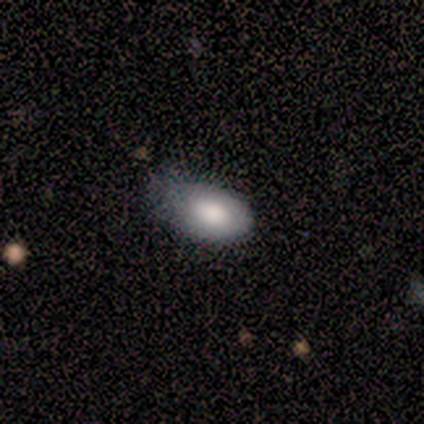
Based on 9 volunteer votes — This appears to be a smooth galaxy with no disk features (78%) that is in between round and cigar-shaped (100%). Merging: minor disturbance (56%).